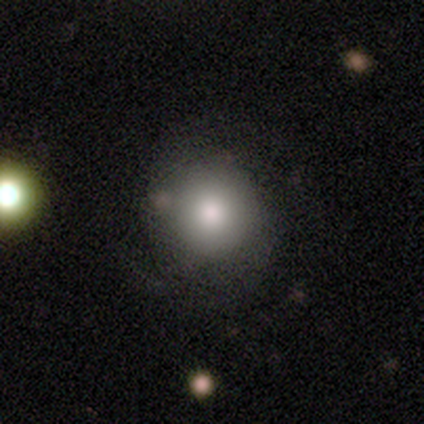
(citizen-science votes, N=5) This is clearly a smooth galaxy (80%). How rounded: clearly round (100%). Merging: clearly none (100%).